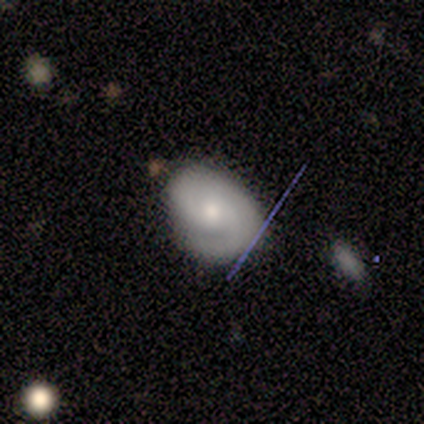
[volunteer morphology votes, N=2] Smooth or featured? featured or disk (100%)
Edge-on disk? no (100%)
Bar? no (100%)
Spiral arms? yes (100%)
Spiral winding? tight (50%, tied with medium)
Spiral arm count? can't tell (100%)
Bulge size? small (100%)
Merging? minor disturbance (50%, tied with major disturbance)